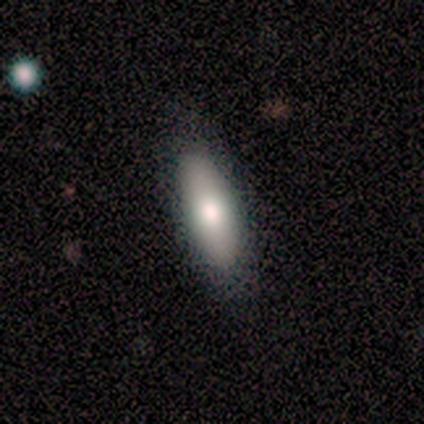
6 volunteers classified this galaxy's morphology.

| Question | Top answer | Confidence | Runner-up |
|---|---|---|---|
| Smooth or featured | smooth | 83% | star or artifact (17%) |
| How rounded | in between | 40% | tied: cigar-shaped (40%) |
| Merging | none | 60% | minor disturbance (20%) |